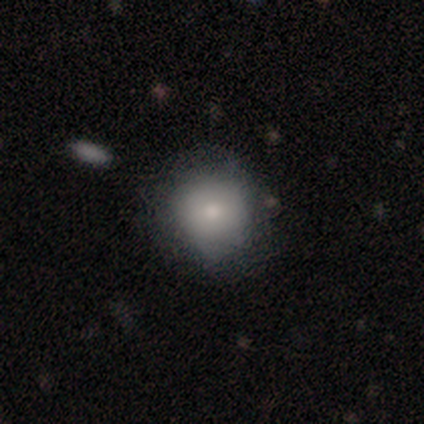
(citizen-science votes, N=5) Overall: smooth (60%; featured or disk 20%). How rounded: round (100%). Merging: none (75%).